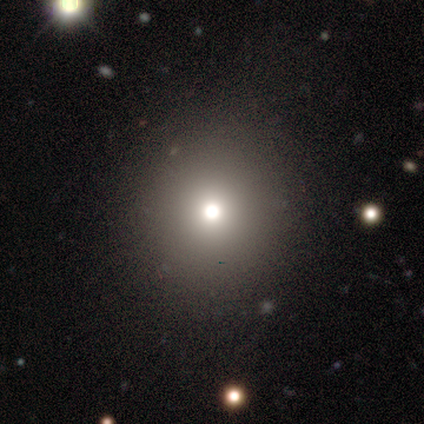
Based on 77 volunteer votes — Volunteers were most divided on "merging": none: 47%, minor disturbance: 3%, merger: 3%, major disturbance: 2%. More confident: how rounded — round (96%); smooth or featured — smooth (73%).